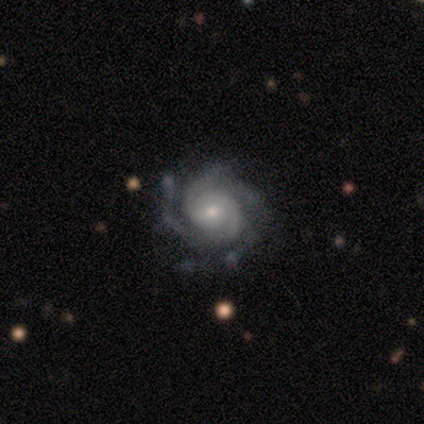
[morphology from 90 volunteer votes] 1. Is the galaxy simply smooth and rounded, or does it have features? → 96% featured or disk, 3% smooth, 1% star or artifact.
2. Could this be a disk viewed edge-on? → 99% no, 1% yes.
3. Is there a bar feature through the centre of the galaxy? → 66% no, 28% weak, 6% strong.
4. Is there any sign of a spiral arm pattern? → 98% yes, 2% no.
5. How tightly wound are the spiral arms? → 64% tight, 30% medium, 6% loose.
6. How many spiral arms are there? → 36% 4, 25% 3, 18% 2, 13% can't tell, 6% more than 4, 1% 1.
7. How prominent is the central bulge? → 61% small, 32% moderate, 5% large, 1% dominant, 1% none.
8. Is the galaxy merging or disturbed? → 78% none, 18% minor disturbance, 2% major disturbance, 2% merger.